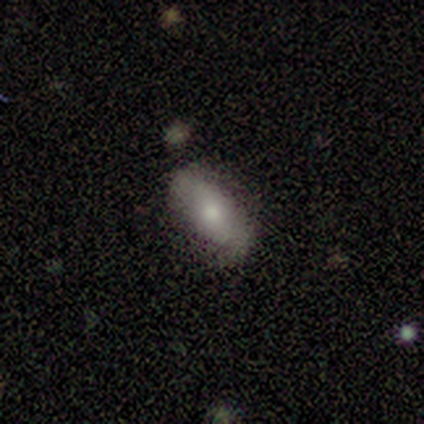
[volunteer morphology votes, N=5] Q: Smooth or featured?
A: smooth (100%)
Q: How rounded?
A: in between (100%)
Q: Merging?
A: none (80%); runner-up: minor disturbance (20%)